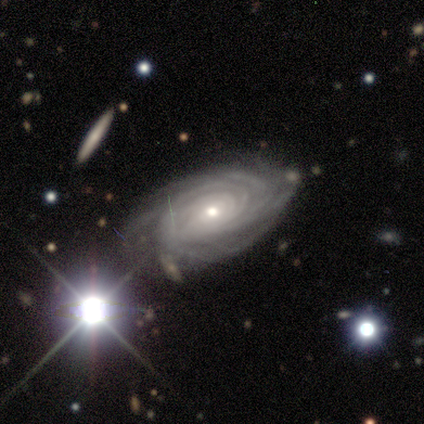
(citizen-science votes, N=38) Smooth or featured?
  - featured or disk: 82% *
  - star or artifact: 13%
  - smooth: 5%
Edge-on disk?
  - no: 94% *
  - yes: 6%
Bar?
  - no: 79% *
  - weak: 14%
  - strong: 7%
Spiral arms?
  - yes: 100% *
  - no: 0%
Spiral winding?
  - tight: 90% *
  - medium: 7%
  - loose: 3%
Spiral arm count?
  - more than 4: 41% *
  - can't tell: 34%
  - 4: 21%
  - 3: 3%
  - 1: 0%
  - 2: 0%
Bulge size?
  - small: 62% *
  - moderate: 38%
  - dominant: 0%
  - large: 0%
  - none: 0%
Merging?
  - none: 67% *
  - minor disturbance: 27%
  - major disturbance: 3%
  - merger: 3%